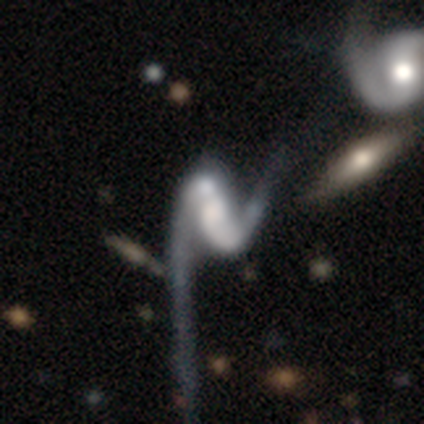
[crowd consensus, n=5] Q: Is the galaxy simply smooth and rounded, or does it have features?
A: featured or disk — 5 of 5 (100%).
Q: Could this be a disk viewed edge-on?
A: no — 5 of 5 (100%).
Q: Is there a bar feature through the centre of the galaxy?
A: strong — 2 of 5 (40%, tied with weak).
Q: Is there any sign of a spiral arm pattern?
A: yes — 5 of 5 (100%).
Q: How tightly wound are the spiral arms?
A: loose — 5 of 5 (100%).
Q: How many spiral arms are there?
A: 2 — 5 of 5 (100%).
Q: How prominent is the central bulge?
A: large — 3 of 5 (60%).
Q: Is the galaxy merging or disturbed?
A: major disturbance — 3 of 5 (60%).